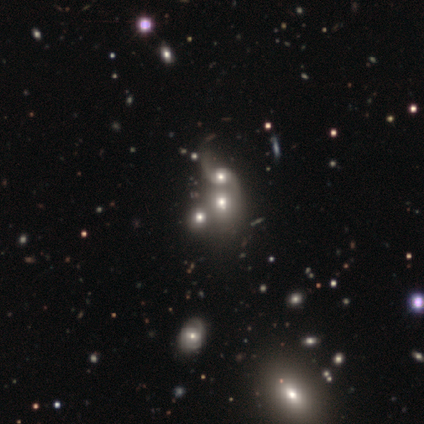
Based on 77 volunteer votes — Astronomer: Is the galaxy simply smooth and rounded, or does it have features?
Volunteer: featured or disk — 51% (runner-up: smooth, 35%).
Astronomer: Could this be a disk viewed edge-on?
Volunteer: no — 97%.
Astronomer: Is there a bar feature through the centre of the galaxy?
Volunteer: no — 79%.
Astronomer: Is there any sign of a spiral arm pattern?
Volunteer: yes — 63%.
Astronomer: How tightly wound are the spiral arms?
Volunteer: loose — 88%.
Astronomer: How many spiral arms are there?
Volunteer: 2 — 79%.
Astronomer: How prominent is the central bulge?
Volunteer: moderate — 45% (runner-up: large, 24%).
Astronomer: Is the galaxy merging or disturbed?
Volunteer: merger — 48%.